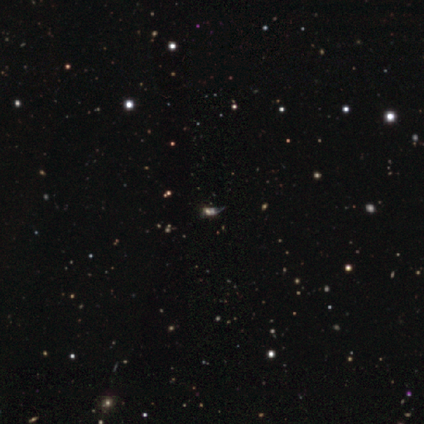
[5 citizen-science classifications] Q: Smooth or featured?
A: star or artifact (80%); runner-up: smooth (20%)